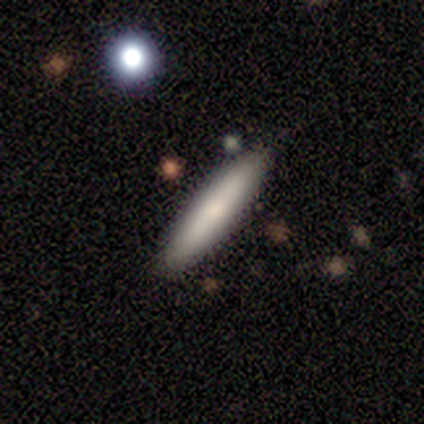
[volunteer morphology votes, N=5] Smooth or featured: smooth — 100%
How rounded: cigar-shaped — 100%
Merging: none — 100%